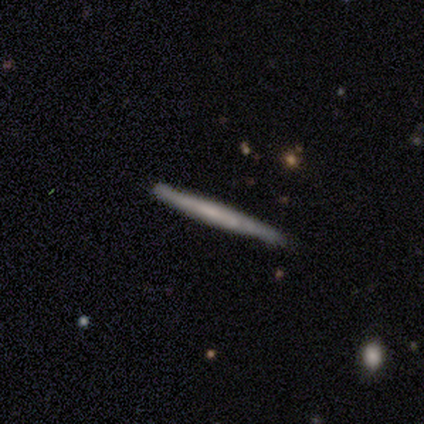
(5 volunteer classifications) Overall: featured or disk (80%). Edge-on disk: yes (100%). Edge-on bulge: none (75%). Merging: none (60%; minor disturbance 40%).